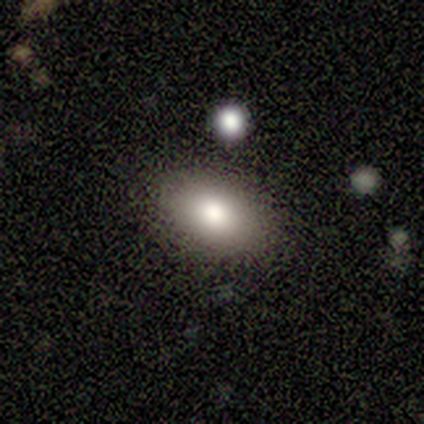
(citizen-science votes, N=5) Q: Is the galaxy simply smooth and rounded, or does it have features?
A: smooth — 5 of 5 (100%).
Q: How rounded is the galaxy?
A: in between — 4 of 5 (80%).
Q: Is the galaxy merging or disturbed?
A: minor disturbance — 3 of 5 (60%).